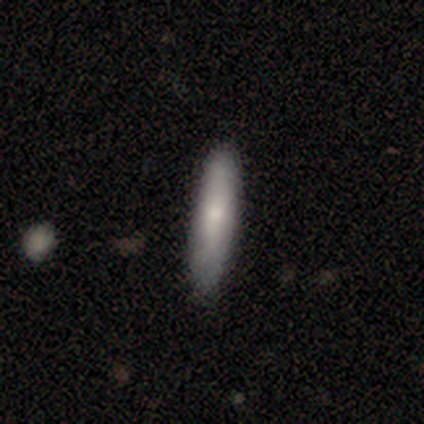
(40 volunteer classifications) Smooth or featured? smooth (75%)
How rounded? cigar-shaped (90%)
Merging? none (68%)